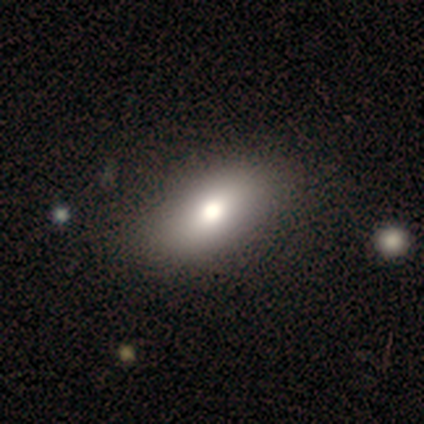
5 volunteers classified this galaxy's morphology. Smooth or featured? smooth (80%)
How rounded? in between (75%)
Merging? none (100%)